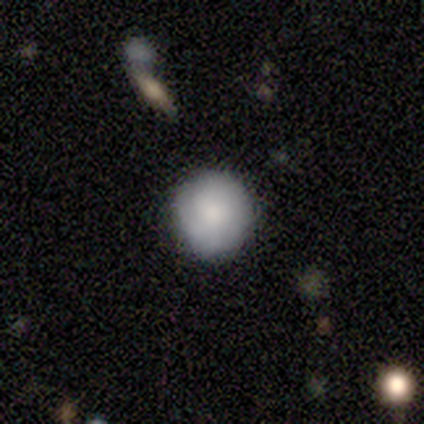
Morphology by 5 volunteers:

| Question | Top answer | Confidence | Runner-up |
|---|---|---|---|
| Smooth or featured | smooth | 100% | — |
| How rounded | round | 100% | — |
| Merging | none | 80% | minor disturbance (20%) |